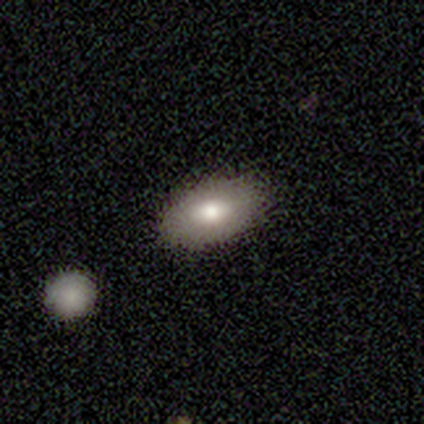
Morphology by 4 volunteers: Smooth or featured? smooth (75%)
How rounded? in between (100%)
Merging? none (100%)